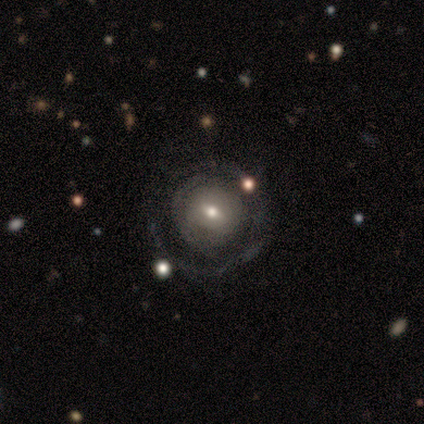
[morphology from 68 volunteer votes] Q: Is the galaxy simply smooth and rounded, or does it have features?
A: featured or disk — 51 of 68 (75%).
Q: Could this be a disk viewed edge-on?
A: no — 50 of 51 (98%).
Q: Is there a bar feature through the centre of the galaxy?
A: weak — 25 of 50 (50%).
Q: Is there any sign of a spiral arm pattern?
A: no — 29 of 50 (58%).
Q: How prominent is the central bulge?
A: moderate — 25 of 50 (50%).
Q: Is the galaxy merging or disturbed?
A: none — 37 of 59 (63%).